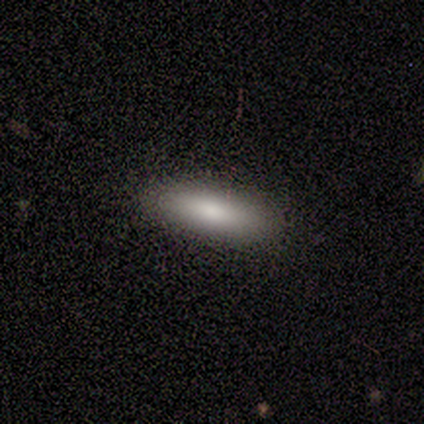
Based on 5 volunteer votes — smooth 100%, featured or disk 0%, star or artifact 0%. Down the decision tree: how rounded — in between (40%, tied with cigar-shaped); merging — none (100%).